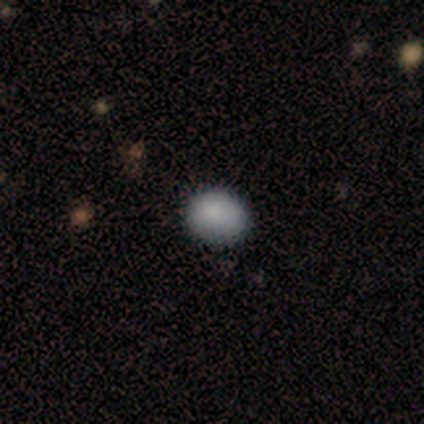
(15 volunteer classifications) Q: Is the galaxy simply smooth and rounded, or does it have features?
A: smooth — 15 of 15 (100%).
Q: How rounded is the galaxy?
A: round — 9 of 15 (60%).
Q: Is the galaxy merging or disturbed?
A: none — 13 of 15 (87%).